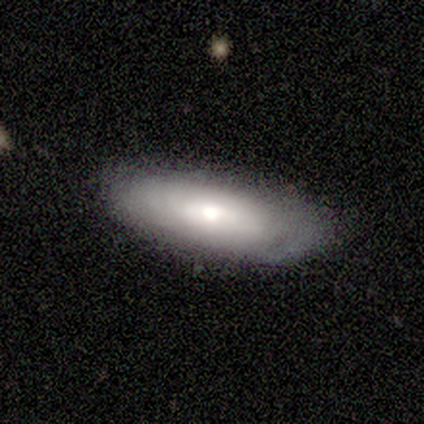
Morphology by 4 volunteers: A smooth galaxy with no disk features (75%) that is in between round and cigar-shaped (100%). Merging: none (50%, tied with minor disturbance).